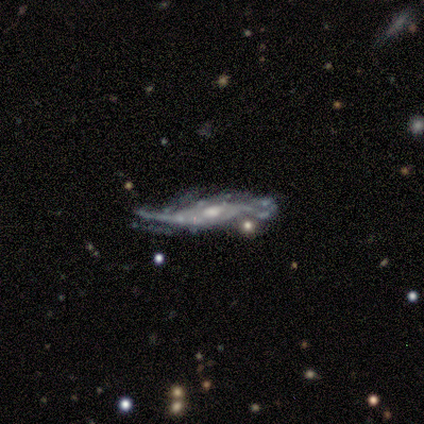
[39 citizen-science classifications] featured or disk 87%, star or artifact 8%, smooth 5%. Down the decision tree: edge-on disk — no (65%); bar — no (77%); spiral arms — yes (73%); spiral arm count — 2 (44%); spiral winding — medium (50%); bulge size — moderate (64%); merging — major disturbance (33%).